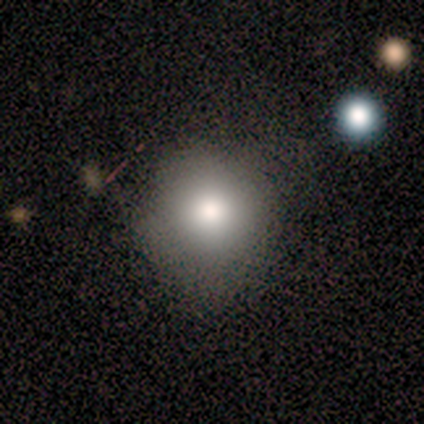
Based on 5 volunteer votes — A smooth galaxy with no disk features (80%) that is round (75%).

Vote fractions:
- Smooth or featured? smooth: 80% / featured or disk: 20% / star or artifact: 0%
- How rounded? round: 75% / in between: 25% / cigar-shaped: 0%
- Merging? none: 80% / minor disturbance: 20% / major disturbance: 0% / merger: 0%